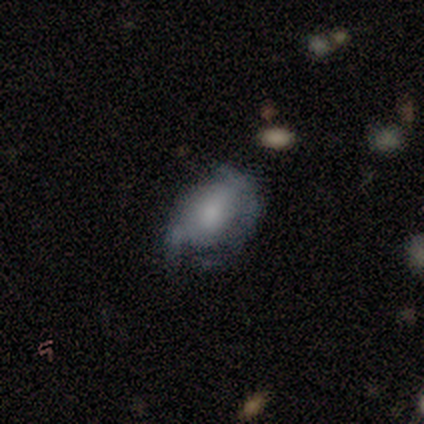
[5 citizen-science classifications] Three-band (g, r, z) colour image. It shows a smooth galaxy with no disk features (60%) that is in between round and cigar-shaped (67%). Merging: minor disturbance (60%).